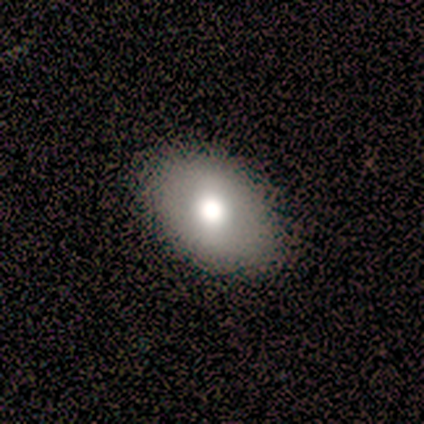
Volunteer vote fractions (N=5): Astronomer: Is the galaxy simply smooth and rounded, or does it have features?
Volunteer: featured or disk — 60% (runner-up: smooth, 40%).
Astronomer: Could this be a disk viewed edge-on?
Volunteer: no — 100%.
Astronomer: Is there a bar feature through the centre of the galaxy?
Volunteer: no — 67%.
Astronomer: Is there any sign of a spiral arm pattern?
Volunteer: no — 100%.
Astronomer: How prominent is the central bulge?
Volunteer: large — 67%.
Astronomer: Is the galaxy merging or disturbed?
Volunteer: none — 100%.